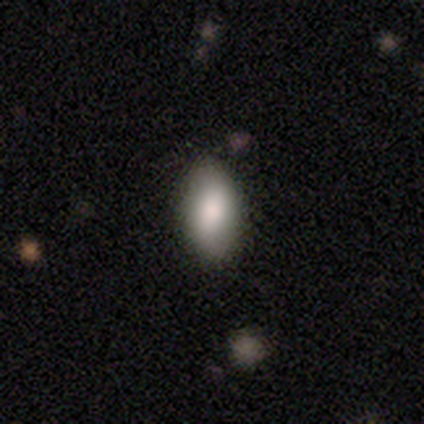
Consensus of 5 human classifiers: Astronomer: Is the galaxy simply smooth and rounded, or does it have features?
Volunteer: featured or disk — 60% (runner-up: smooth, 40%).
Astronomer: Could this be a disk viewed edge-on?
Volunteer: no — 100%.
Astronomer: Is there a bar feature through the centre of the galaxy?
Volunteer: strong — 33%, tied with weak and no at 33%.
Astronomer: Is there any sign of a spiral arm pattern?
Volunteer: no — 100%.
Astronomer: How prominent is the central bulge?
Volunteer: moderate — 67%.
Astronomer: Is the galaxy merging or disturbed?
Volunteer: none — 80%.